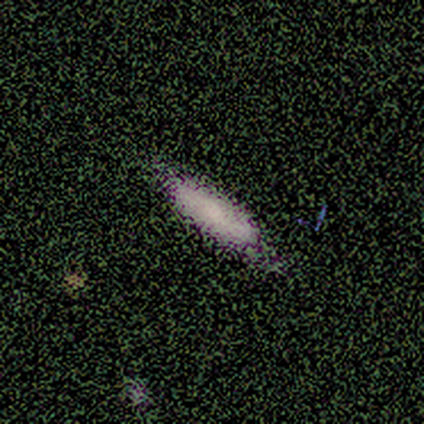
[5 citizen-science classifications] Overall: smooth (100%). How rounded: in between (80%). Merging: none (100%).